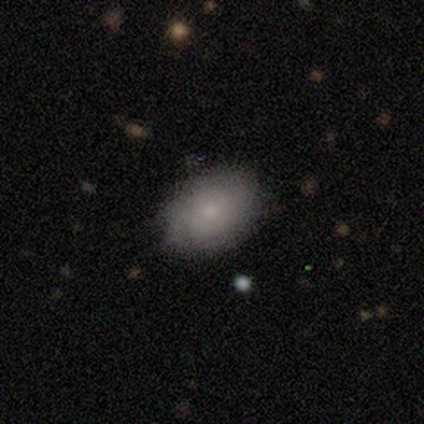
smooth 80%, featured or disk 20%, star or artifact 0%. Down the decision tree: how rounded — round (50%, tied with in between); merging — none (100%).